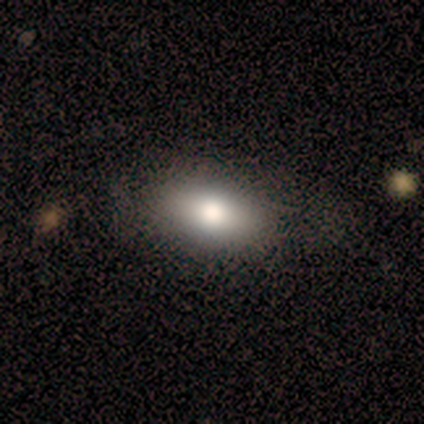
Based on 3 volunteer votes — Smooth or featured?
  - smooth: 100% *
  - featured or disk: 0%
  - star or artifact: 0%
How rounded?
  - in between: 67% *
  - round: 33%
  - cigar-shaped: 0%
Merging?
  - none: 67% *
  - minor disturbance: 33%
  - major disturbance: 0%
  - merger: 0%